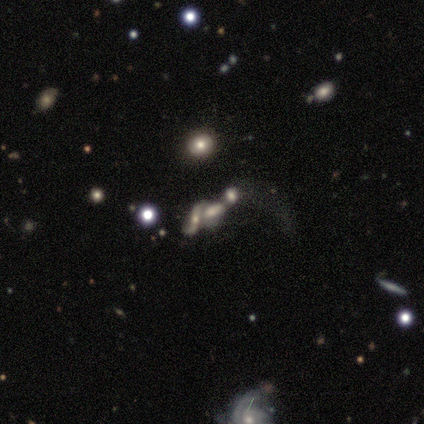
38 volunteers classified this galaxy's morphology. smooth-or-featured: featured or disk: 45% | smooth: 37% | star or artifact: 18%
  disk-edge-on: no: 82% | yes: 18%
    bar: no: 64% | weak: 36% | strong: 0%
    has-spiral-arms: yes: 50% (tied) | no: 50% (tied)
      spiral-winding: loose: 86% | medium: 14% | tight: 0%
      spiral-arm-count: 2: 86% | can't tell: 14% | 1: 0% | 3: 0% | 4: 0% | more than 4: 0%
    bulge-size: moderate: 43% | large: 29% | small: 14% | none: 14% | dominant: 0%
  merging: merger: 87% | none: 6% | minor disturbance: 3% | major disturbance: 3%